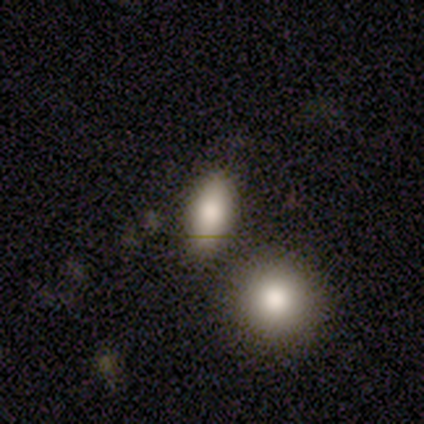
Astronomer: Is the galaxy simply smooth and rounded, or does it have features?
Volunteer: smooth — 80%.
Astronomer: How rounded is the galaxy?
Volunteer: in between — 100%.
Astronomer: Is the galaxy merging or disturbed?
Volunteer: none — 80%.